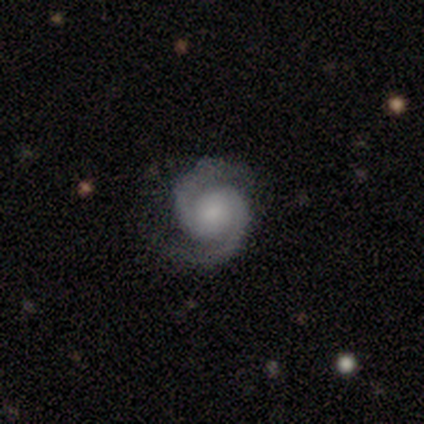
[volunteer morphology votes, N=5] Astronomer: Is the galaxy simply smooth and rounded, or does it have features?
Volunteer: featured or disk — 100%.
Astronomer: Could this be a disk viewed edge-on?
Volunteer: no — 100%.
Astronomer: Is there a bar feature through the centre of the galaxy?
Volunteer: no — 100%.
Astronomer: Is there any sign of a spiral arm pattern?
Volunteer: yes — 100%.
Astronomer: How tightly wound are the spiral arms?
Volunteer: tight — 80%.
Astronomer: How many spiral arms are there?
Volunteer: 2 — 100%.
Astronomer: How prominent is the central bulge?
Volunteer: large — 40%, tied with small at 40%.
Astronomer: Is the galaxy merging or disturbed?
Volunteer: none — 80%.